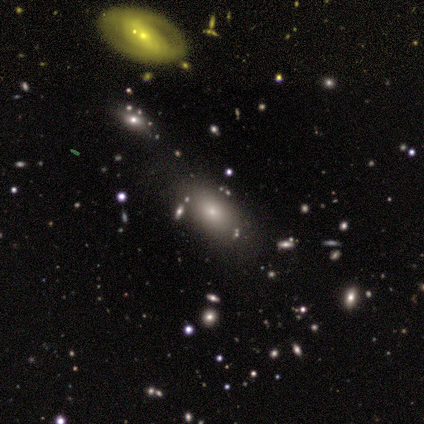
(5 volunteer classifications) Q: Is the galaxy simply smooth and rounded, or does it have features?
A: smooth — 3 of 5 (60%).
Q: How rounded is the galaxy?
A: in between — 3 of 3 (100%).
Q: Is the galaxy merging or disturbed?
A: none — 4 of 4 (100%).